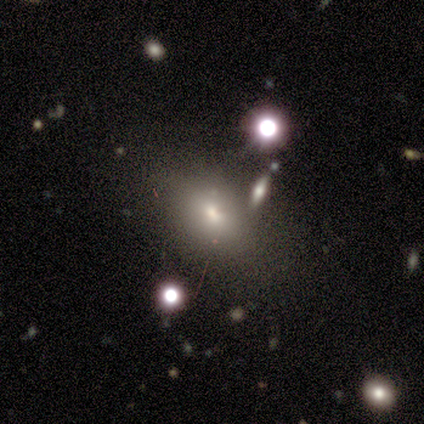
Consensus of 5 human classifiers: A smooth galaxy with no disk features (60%) that is in between round and cigar-shaped (100%). Merging: none (67%).